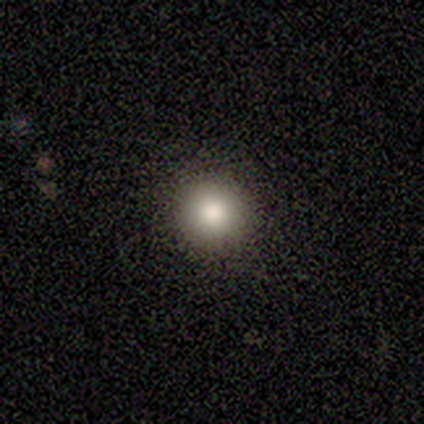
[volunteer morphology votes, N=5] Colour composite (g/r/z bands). It shows a smooth galaxy with no disk features (60%) that is round (100%). Merging: none (100%).